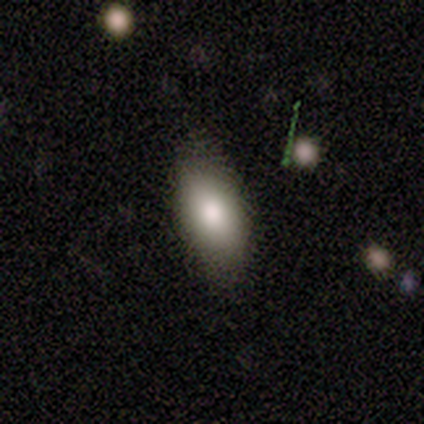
smooth-or-featured: smooth: 100% | featured or disk: 0% | star or artifact: 0%
  how-rounded: in between: 100% | round: 0% | cigar-shaped: 0%
  merging: none: 80% | minor disturbance: 20% | major disturbance: 0% | merger: 0%